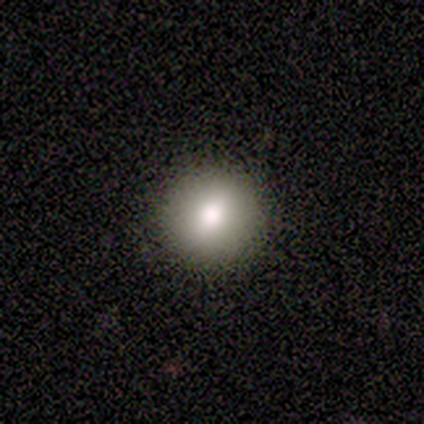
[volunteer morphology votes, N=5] A smooth galaxy with no disk features (80%) that is round (100%).

Vote fractions:
- Smooth or featured? smooth: 80% / star or artifact: 20% / featured or disk: 0%
- How rounded? round: 100% / in between: 0% / cigar-shaped: 0%
- Merging? none: 100% / minor disturbance: 0% / major disturbance: 0% / merger: 0%